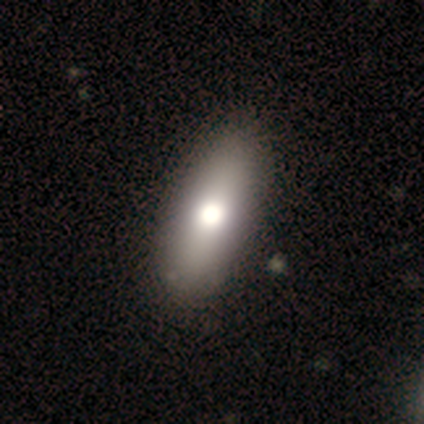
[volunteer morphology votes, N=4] smooth_or_featured: smooth (p=0.75) [alt: star or artifact p=0.25]
how_rounded: in between (p=0.67) [alt: cigar-shaped p=0.33]
merging: none (p=0.67) [alt: minor disturbance p=0.33]